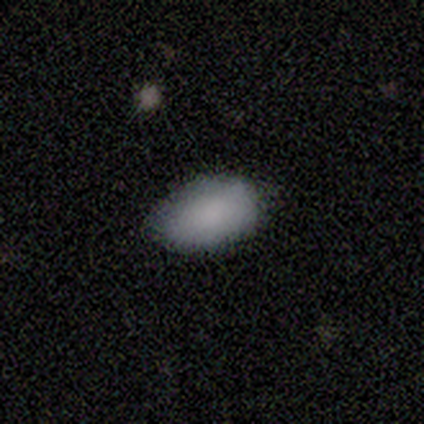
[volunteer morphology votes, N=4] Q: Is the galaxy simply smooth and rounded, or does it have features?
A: smooth — 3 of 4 (75%).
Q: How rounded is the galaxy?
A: in between — 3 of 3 (100%).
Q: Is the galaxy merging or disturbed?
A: none — 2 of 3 (67%).